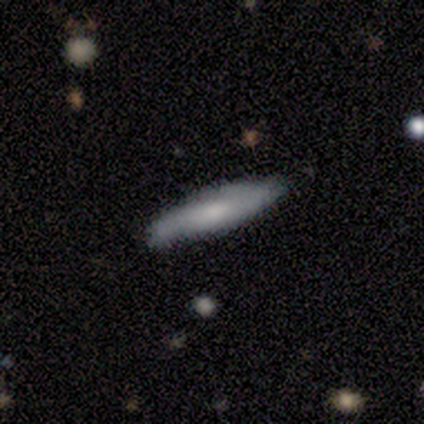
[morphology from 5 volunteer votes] Smooth or featured?
  - smooth: 60% *
  - featured or disk: 40%
  - star or artifact: 0%
How rounded?
  - cigar-shaped: 100% *
  - round: 0%
  - in between: 0%
Merging?
  - none: 100% *
  - minor disturbance: 0%
  - major disturbance: 0%
  - merger: 0%